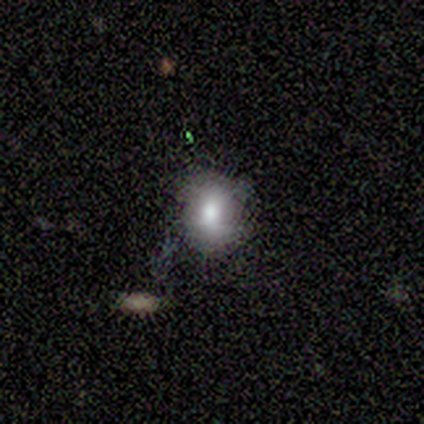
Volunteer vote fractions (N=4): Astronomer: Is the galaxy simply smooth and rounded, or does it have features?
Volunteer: smooth — 75%.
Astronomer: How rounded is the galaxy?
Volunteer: round — 67%.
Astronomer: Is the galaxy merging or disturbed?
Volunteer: none — 100%.